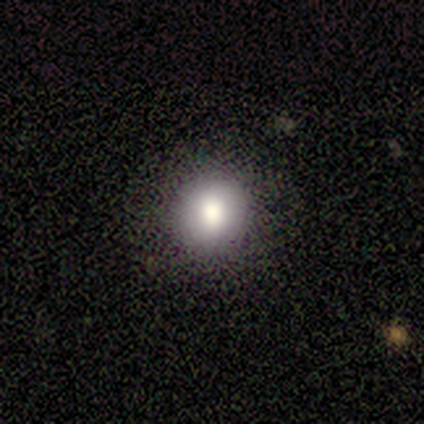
Smooth or featured? smooth (80%)
How rounded? round (75%)
Merging? none (100%)